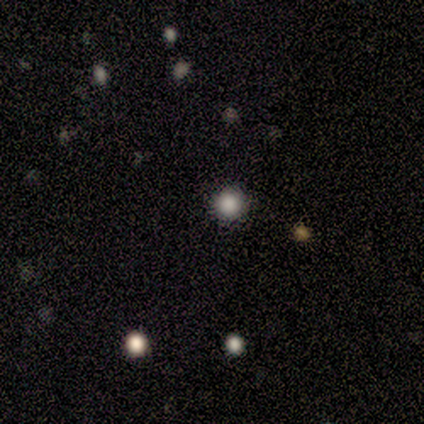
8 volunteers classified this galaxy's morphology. smooth_or_featured: smooth (p=0.75) [alt: featured or disk p=0.12]
how_rounded: round (p=1.00)
merging: none (p=1.00)